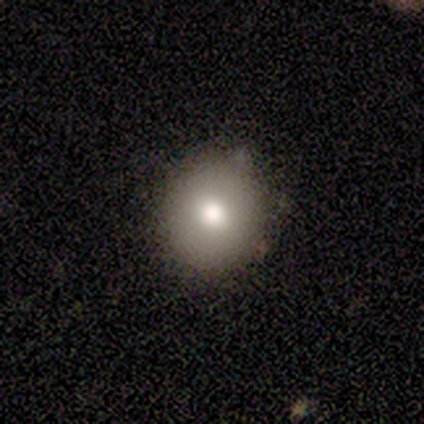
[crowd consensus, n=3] A smooth galaxy with no disk features (100%) that is round (100%). Merging: none (100%).